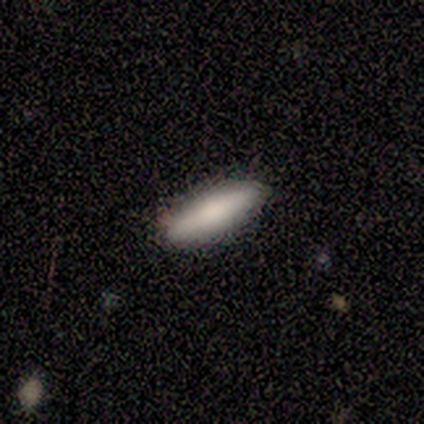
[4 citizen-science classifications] smooth 75%, featured or disk 25%, star or artifact 0%. Down the decision tree: how rounded — in between (67%); merging — none (100%).